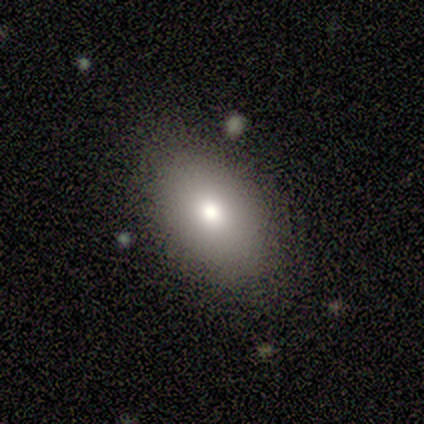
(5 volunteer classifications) smooth-or-featured: featured or disk: 60% | smooth: 20% | star or artifact: 20%
  disk-edge-on: no: 100% | yes: 0%
    bar: no: 67% | weak: 33% | strong: 0%
    has-spiral-arms: no: 67% | yes: 33%
    bulge-size: moderate: 67% | large: 33% | dominant: 0% | small: 0% | none: 0%
  merging: none: 50% (tied) | minor disturbance: 50% (tied) | major disturbance: 0% | merger: 0%